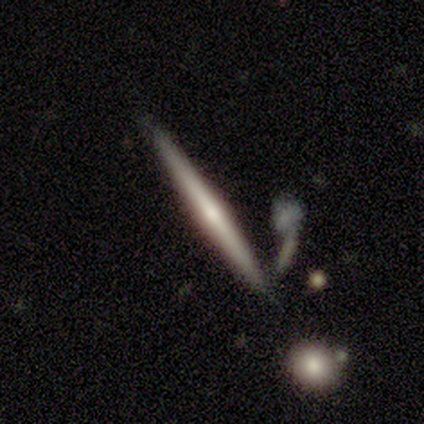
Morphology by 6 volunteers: smooth-or-featured: smooth: 50% | featured or disk: 33% | star or artifact: 17%
  how-rounded: cigar-shaped: 100% | round: 0% | in between: 0%
  merging: major disturbance: 60% | none: 40% | minor disturbance: 0% | merger: 0%